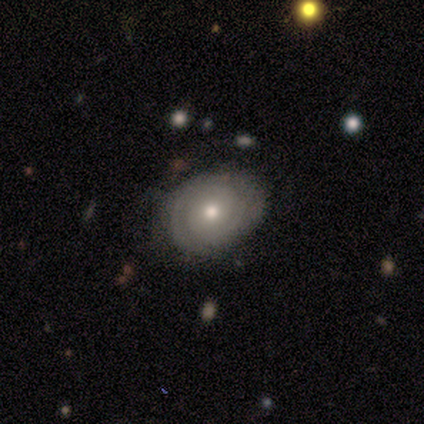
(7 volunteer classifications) smooth 57%, featured or disk 43%, star or artifact 0%. Down the decision tree: how rounded — round (50%, tied with in between); merging — none (71%).